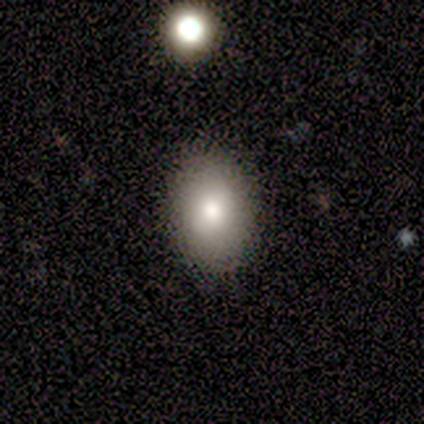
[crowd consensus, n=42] Smooth or featured? smooth (83%)
How rounded? in between (74%)
Merging? none (84%)